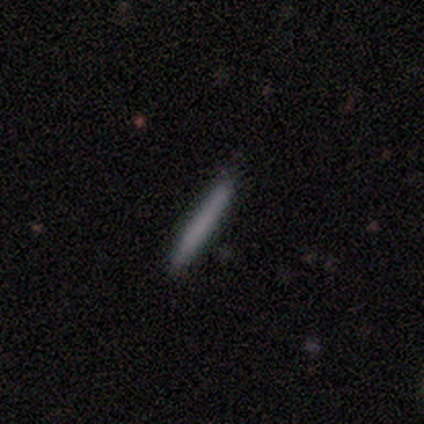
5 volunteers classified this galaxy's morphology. Q: Smooth or featured?
A: smooth (60%); runner-up: featured or disk (40%)
Q: How rounded?
A: cigar-shaped (100%)
Q: Merging?
A: none (100%)